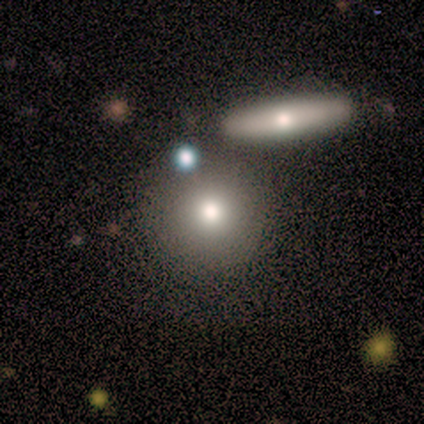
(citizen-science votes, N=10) A smooth galaxy with no disk features (70%) that is round (86%).

Vote fractions:
- Smooth or featured? smooth: 70% / featured or disk: 30% / star or artifact: 0%
- How rounded? round: 86% / in between: 14% / cigar-shaped: 0%
- Merging? none: 60% / merger: 20% / minor disturbance: 10% / major disturbance: 10%